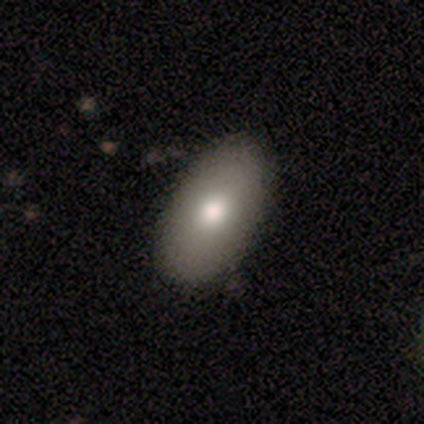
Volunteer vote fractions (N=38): Smooth or featured? 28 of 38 (74%) said smooth. How rounded? 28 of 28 (100%) said in between. Merging? 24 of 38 (63%) said none.